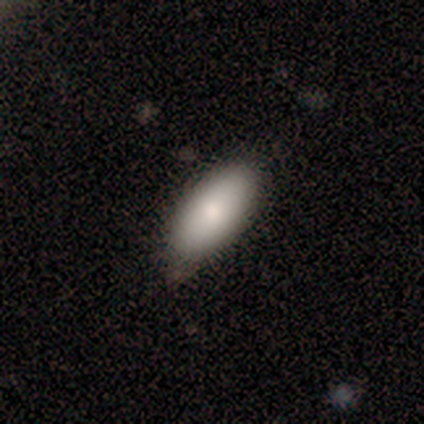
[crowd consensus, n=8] Overall: smooth (75%). How rounded: in between (83%). Merging: none (71%).